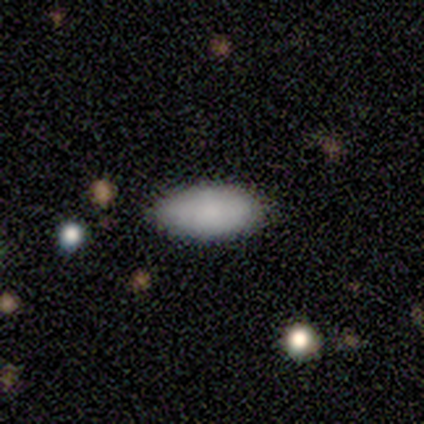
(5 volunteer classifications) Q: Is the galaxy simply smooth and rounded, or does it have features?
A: smooth — 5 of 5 (100%).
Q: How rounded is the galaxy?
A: in between — 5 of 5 (100%).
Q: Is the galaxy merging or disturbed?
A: none — 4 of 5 (80%).